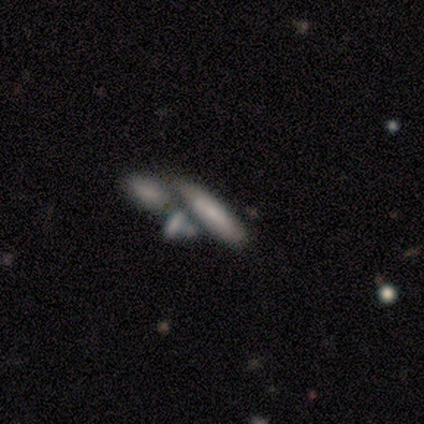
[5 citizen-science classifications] Smooth or featured: featured or disk — 60% (smooth — 40%)
Edge-on disk: yes — 67% (no — 33%)
Edge-on bulge: none — 50% (tied with rounded — 50%)
Merging: merger — 40% (none — 20%)